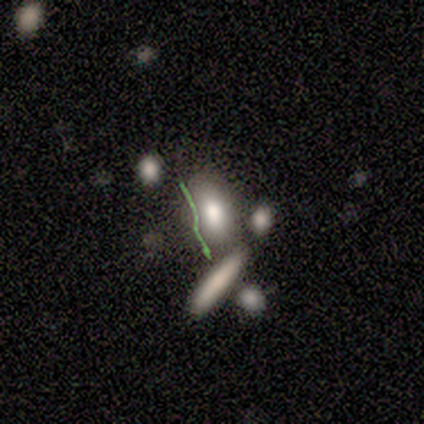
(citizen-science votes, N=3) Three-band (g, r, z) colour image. It shows a smooth galaxy with no disk features (100%) that is in between round and cigar-shaped (100%). Merging: none (33%, tied with major disturbance and merger).